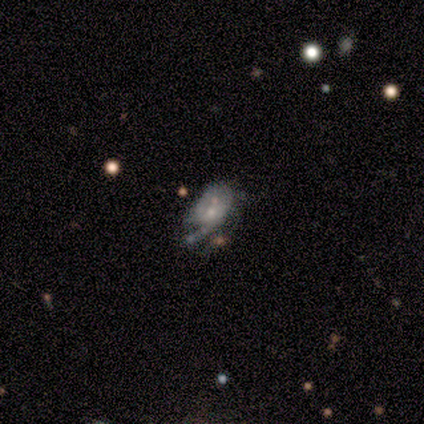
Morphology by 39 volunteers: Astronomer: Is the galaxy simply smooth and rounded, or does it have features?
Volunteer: featured or disk — 77%.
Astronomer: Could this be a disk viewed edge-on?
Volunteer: no — 93%.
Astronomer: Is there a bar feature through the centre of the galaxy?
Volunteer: no — 61%.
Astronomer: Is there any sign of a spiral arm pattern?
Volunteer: yes — 57% (runner-up: no, 43%).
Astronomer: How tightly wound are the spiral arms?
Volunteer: medium — 38% (runner-up: tight, 31%).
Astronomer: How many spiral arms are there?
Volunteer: can't tell — 44% (runner-up: 2, 25%).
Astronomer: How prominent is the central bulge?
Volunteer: small — 64%.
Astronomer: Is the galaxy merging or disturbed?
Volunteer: none — 36% (runner-up: major disturbance, 28%).